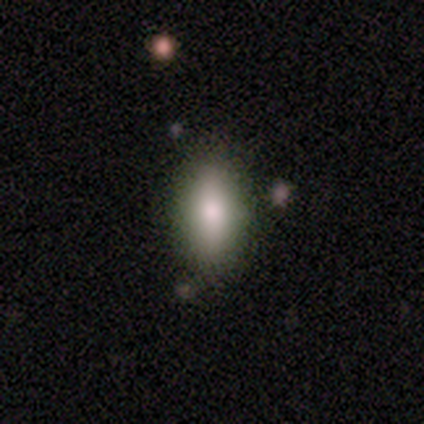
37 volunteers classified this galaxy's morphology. smooth 86%, featured or disk 11%, star or artifact 3%. Down the decision tree: how rounded — in between (72%); merging — none (78%).